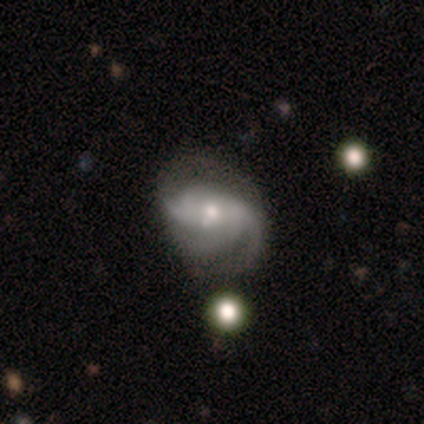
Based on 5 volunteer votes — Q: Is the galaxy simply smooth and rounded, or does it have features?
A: featured or disk — 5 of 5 (100%).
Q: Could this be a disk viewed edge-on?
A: no — 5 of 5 (100%).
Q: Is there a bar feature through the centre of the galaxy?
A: no — 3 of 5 (60%).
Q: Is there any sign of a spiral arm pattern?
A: yes — 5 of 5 (100%).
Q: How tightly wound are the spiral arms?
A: tight — 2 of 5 (40%, tied with medium).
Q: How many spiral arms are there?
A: can't tell — 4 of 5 (80%).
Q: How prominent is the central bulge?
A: moderate — 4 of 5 (80%).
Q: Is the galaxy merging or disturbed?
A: none — 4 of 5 (80%).